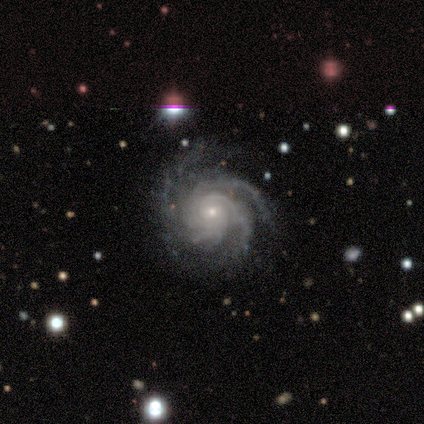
Smooth or featured? 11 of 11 (100%) said featured or disk. Edge-on disk? 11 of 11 (100%) said no. Bar? 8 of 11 (73%) said no. Spiral arms? 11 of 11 (100%) said yes. Spiral winding? 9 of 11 (82%) said tight. Spiral arm count? 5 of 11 (45%) said can't tell. Bulge size? 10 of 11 (91%) said small. Merging? 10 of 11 (91%) said none.